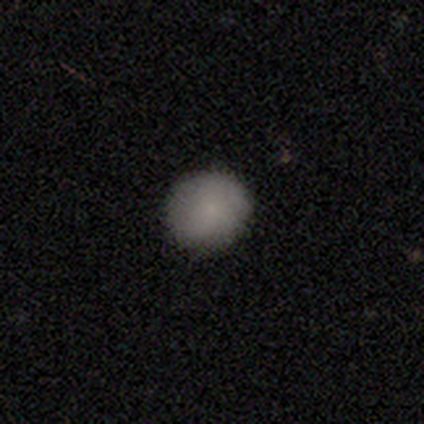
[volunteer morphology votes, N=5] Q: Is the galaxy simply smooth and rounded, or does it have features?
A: smooth — 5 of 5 (100%).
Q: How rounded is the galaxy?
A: round — 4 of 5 (80%).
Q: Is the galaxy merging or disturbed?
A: none — 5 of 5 (100%).